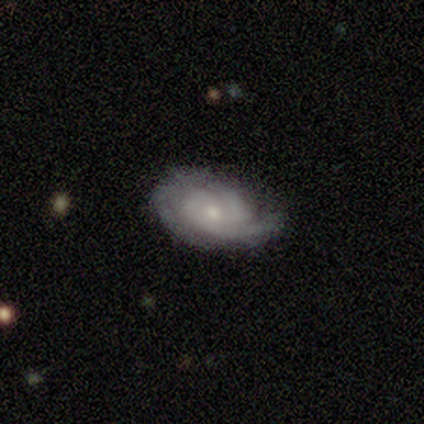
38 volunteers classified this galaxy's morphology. type=featured or disk (71%); edge-on=no (100%); bar=no (67%); spiral arms=yes (89%); winding=tight (67%); arm count=2 (62%); bulge=small (63%); merging=none (65%).